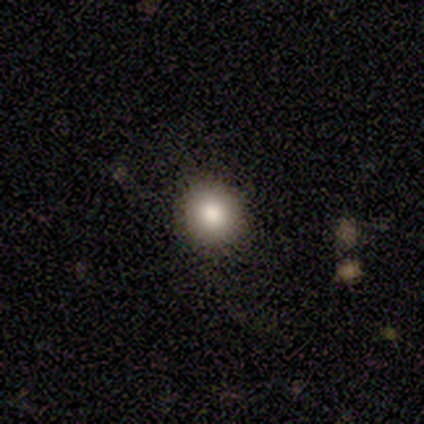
smooth_or_featured: smooth (p=0.80) [alt: star or artifact p=0.12]
how_rounded: round (p=0.94) [alt: in between p=0.06]
merging: none (p=0.77)